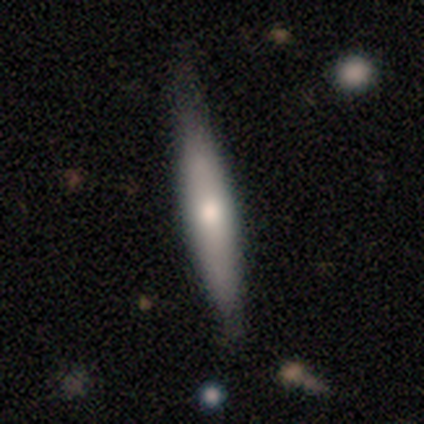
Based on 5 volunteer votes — Morphology: type=smooth (60%); roundness=cigar-shaped (100%); merging=none (60%).